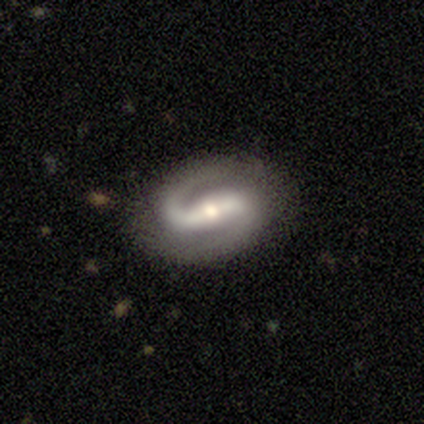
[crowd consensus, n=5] Smooth or featured?
  - featured or disk: 100% *
  - smooth: 0%
  - star or artifact: 0%
Edge-on disk?
  - no: 100% *
  - yes: 0%
Bar?
  - strong: 80% *
  - weak: 20%
  - no: 0%
Spiral arms?
  - yes: 100% *
  - no: 0%
Spiral winding?
  - medium: 60% *
  - tight: 20%
  - loose: 20%
Spiral arm count?
  - 2: 100% *
  - 1: 0%
  - 3: 0%
  - 4: 0%
  - more than 4: 0%
  - can't tell: 0%
Bulge size?
  - moderate: 40% * (tied)
  - small: 40% * (tied)
  - large: 20%
  - dominant: 0%
  - none: 0%
Merging?
  - none: 80% *
  - minor disturbance: 20%
  - major disturbance: 0%
  - merger: 0%